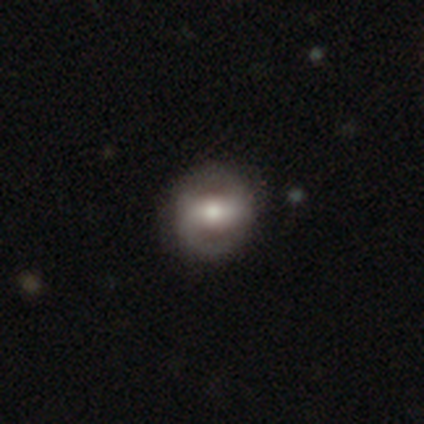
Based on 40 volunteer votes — smooth-or-featured: featured or disk: 62% | smooth: 30% | star or artifact: 8%
  disk-edge-on: no: 92% | yes: 8%
    bar: strong: 52% | weak: 48% | no: 0%
    has-spiral-arms: yes: 78% | no: 22%
      spiral-winding: tight: 39% | loose: 33% | medium: 28%
      spiral-arm-count: 2: 89% | 1: 6% | can't tell: 6% | 3: 0% | 4: 0% | more than 4: 0%
    bulge-size: moderate: 61% | large: 22% | small: 9% | dominant: 4% | none: 4%
  merging: none: 84% | minor disturbance: 11% | major disturbance: 5% | merger: 0%